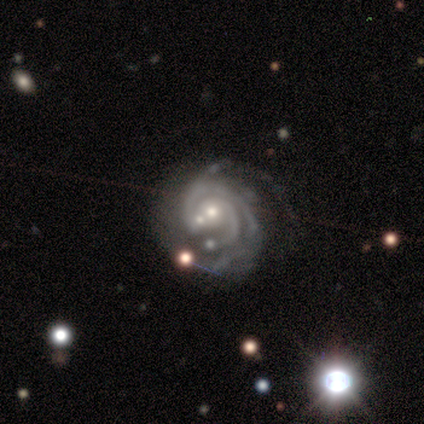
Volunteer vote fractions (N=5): Smooth or featured?
  - featured or disk: 100% *
  - smooth: 0%
  - star or artifact: 0%
Edge-on disk?
  - no: 100% *
  - yes: 0%
Bar?
  - weak: 60% *
  - no: 40%
  - strong: 0%
Spiral arms?
  - yes: 100% *
  - no: 0%
Spiral winding?
  - tight: 80% *
  - medium: 20%
  - loose: 0%
Spiral arm count?
  - 2: 80% *
  - can't tell: 20%
  - 1: 0%
  - 3: 0%
  - 4: 0%
  - more than 4: 0%
Bulge size?
  - small: 60% *
  - moderate: 40%
  - dominant: 0%
  - large: 0%
  - none: 0%
Merging?
  - none: 80% *
  - minor disturbance: 20%
  - major disturbance: 0%
  - merger: 0%